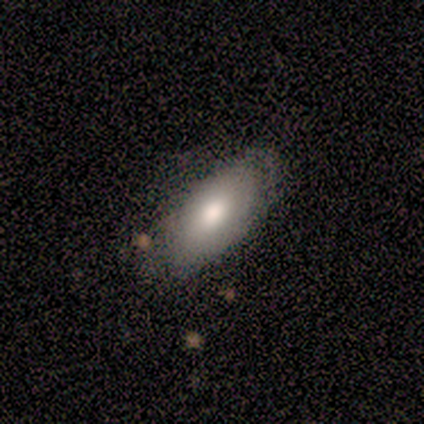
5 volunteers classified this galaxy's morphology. Volunteers were most divided on "smooth or featured": smooth: 60%, featured or disk: 40%, star or artifact: 0%. More confident: how rounded — in between (67%); merging — minor disturbance (60%).